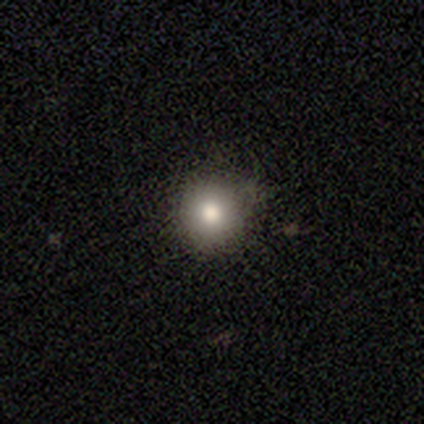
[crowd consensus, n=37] Overall: smooth (86%). How rounded: round (97%). Merging: none (71%).